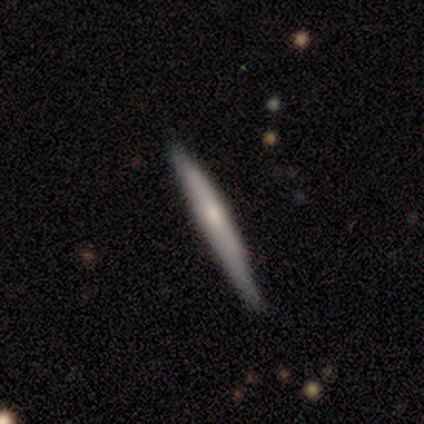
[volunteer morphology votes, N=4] Smooth or featured? smooth (50%, tied with featured or disk)
How rounded? cigar-shaped (100%)
Merging? none (75%)